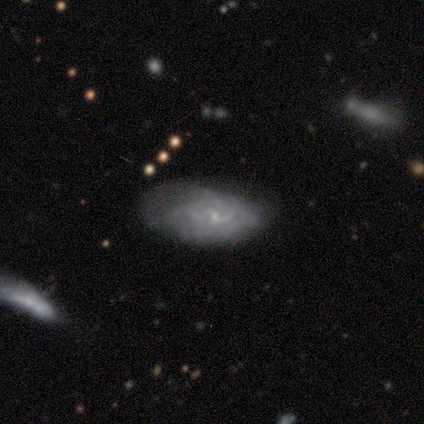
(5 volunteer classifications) Morphology: type=smooth (60%); roundness=in between (100%); merging=none (60%).